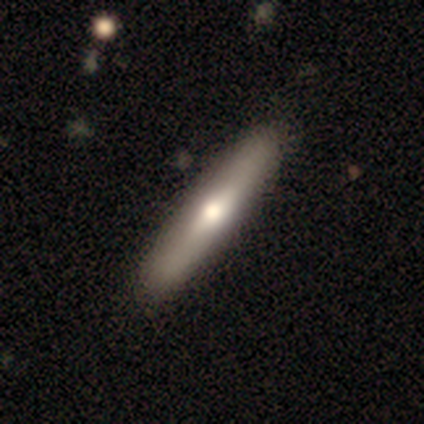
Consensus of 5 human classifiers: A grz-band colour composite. It shows a featured or disk galaxy (100%) viewed edge-on (80%) with a rounded central bulge (50%). Merging: none (80%).